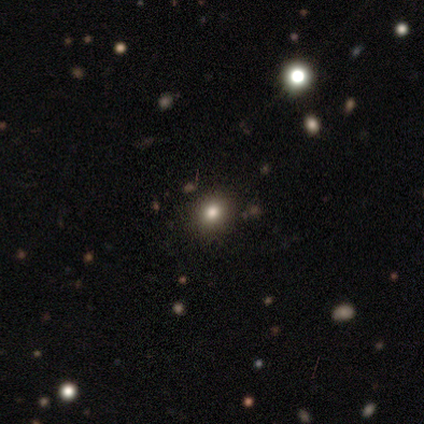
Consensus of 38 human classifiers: smooth_or_featured: smooth (p=0.58) [alt: star or artifact p=0.34]
how_rounded: round (p=0.68) [alt: in between p=0.27]
merging: none (p=0.88) [alt: minor disturbance p=0.08]